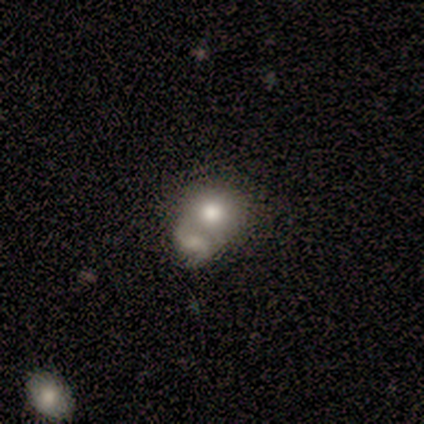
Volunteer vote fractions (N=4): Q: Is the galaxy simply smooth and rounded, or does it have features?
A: smooth — 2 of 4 (50%, tied with featured or disk).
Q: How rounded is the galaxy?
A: round — 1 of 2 (50%, tied with in between).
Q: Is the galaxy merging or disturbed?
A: merger — 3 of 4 (75%).